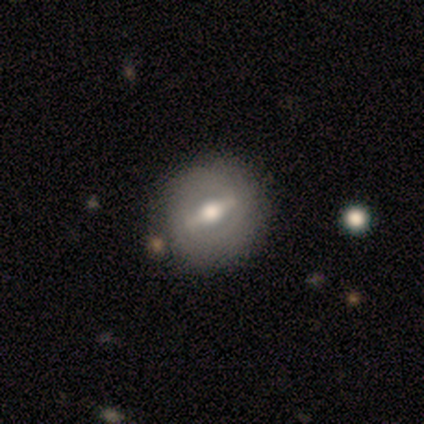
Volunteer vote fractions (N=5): smooth-or-featured: featured or disk: 80% | smooth: 20% | star or artifact: 0%
  disk-edge-on: no: 75% | yes: 25%
    bar: strong: 100% | weak: 0% | no: 0%
    has-spiral-arms: no: 67% | yes: 33%
    bulge-size: moderate: 67% | large: 33% | dominant: 0% | small: 0% | none: 0%
  merging: none: 80% | minor disturbance: 20% | major disturbance: 0% | merger: 0%